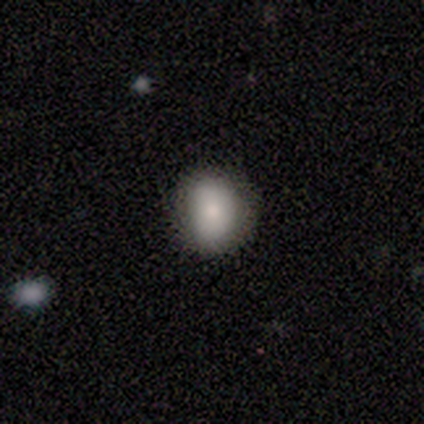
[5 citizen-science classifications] This is clearly a smooth galaxy (100%). How rounded: clearly round (80%). Merging: clearly none (100%).